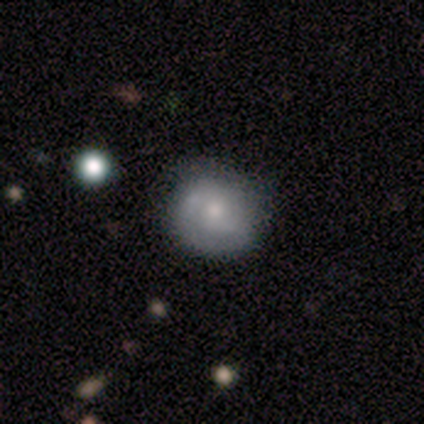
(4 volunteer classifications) Overall: smooth (50%, tied with featured or disk). How rounded: round (100%). Merging: none (75%).